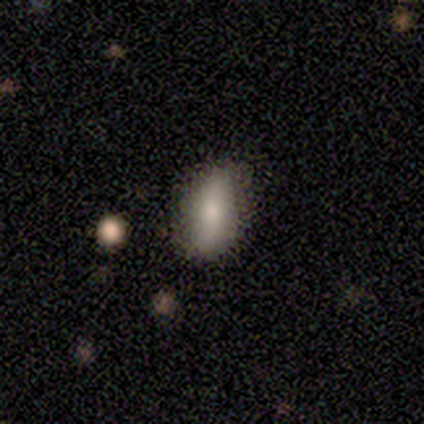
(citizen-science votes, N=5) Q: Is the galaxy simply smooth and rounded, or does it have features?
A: smooth — 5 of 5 (100%).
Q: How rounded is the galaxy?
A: in between — 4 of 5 (80%).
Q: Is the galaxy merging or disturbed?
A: none — 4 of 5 (80%).